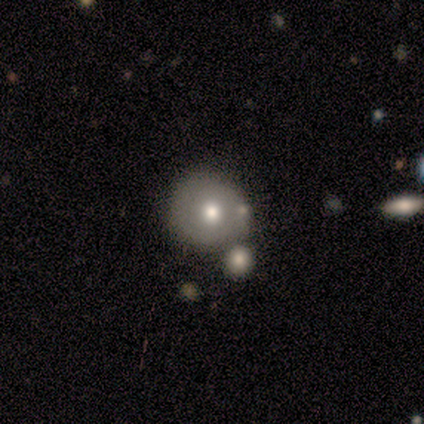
Q: Smooth or featured?
A: smooth (71%); runner-up: featured or disk (14%)
Q: How rounded?
A: round (80%); runner-up: in between (20%)
Q: Merging?
A: none (50%); tied with: merger (50%)